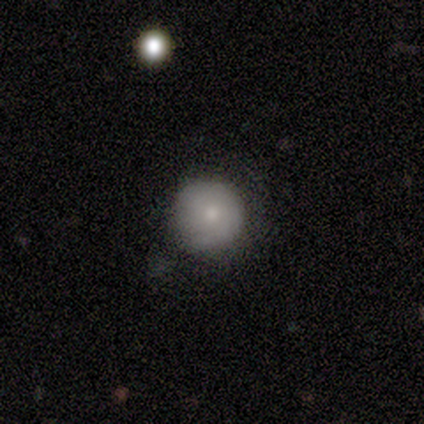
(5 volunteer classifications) This is likely a smooth galaxy (60%). How rounded: clearly round (100%). Merging: possibly none (50%).